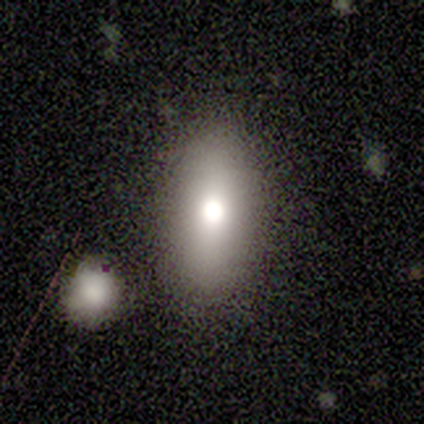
This is likely a smooth galaxy (60%). How rounded: clearly in between (100%). Merging: clearly none (100%).